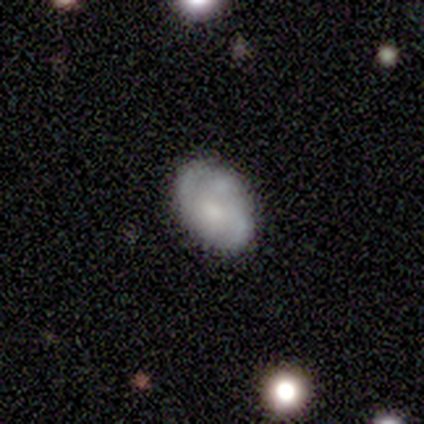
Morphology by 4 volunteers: smooth 50%, featured or disk 25%, star or artifact 25%. Down the decision tree: how rounded — in between (100%); merging — none (100%).